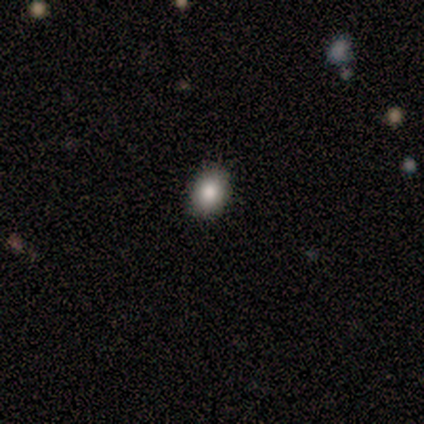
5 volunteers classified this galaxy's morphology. smooth 80%, star or artifact 20%, featured or disk 0%. Down the decision tree: how rounded — round (50%, tied with in between); merging — none (100%).